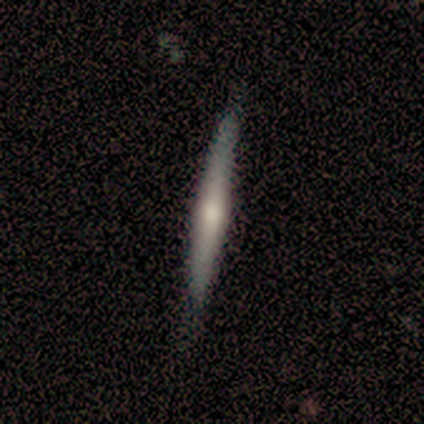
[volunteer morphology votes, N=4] Overall: featured or disk (75%). Edge-on disk: yes (100%). Edge-on bulge: rounded (100%). Merging: minor disturbance (75%).